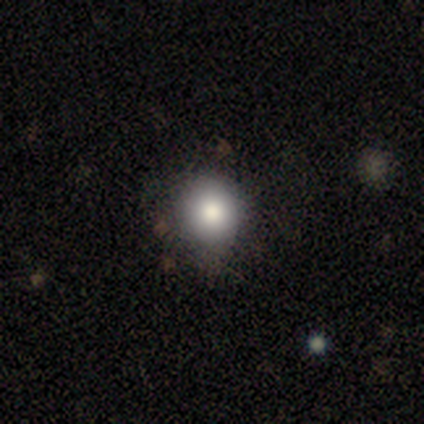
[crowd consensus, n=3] Smooth or featured? star or artifact (67%)